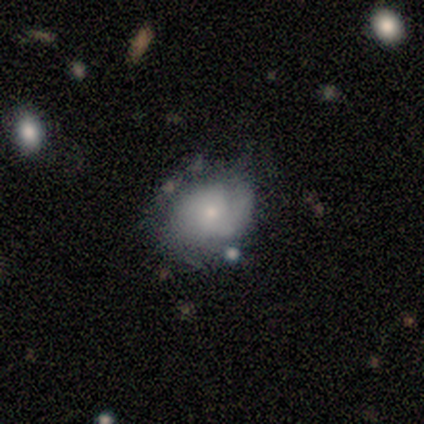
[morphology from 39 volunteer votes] smooth_or_featured: featured or disk (p=0.56) [alt: smooth p=0.38]
disk_edge_on: no (p=1.00)
bar: no (p=0.68) [alt: weak p=0.18]
has_spiral_arms: yes (p=0.86) [alt: no p=0.14]
spiral_winding: tight (p=0.63) [alt: medium p=0.21]
spiral_arm_count: 1 (p=0.37) [alt: can't tell p=0.32]
bulge_size: small (p=0.50) [alt: moderate p=0.32]
merging: none (p=0.38) [alt: minor disturbance p=0.22]